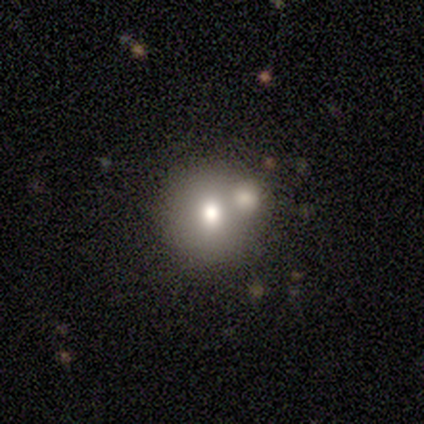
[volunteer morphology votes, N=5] smooth-or-featured: smooth: 100% | featured or disk: 0% | star or artifact: 0%
  how-rounded: round: 100% | in between: 0% | cigar-shaped: 0%
  merging: none: 60% | minor disturbance: 20% | merger: 20% | major disturbance: 0%